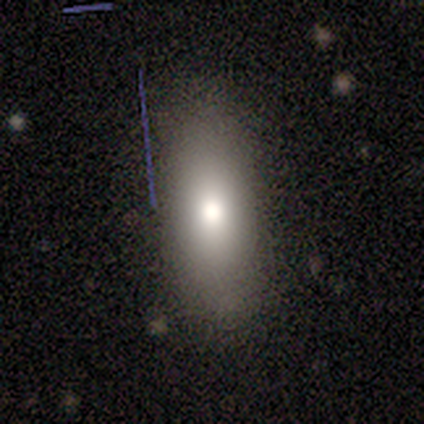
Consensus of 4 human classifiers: smooth-or-featured: smooth: 100% | featured or disk: 0% | star or artifact: 0%
  how-rounded: in between: 75% | round: 25% | cigar-shaped: 0%
  merging: none: 75% | minor disturbance: 25% | major disturbance: 0% | merger: 0%